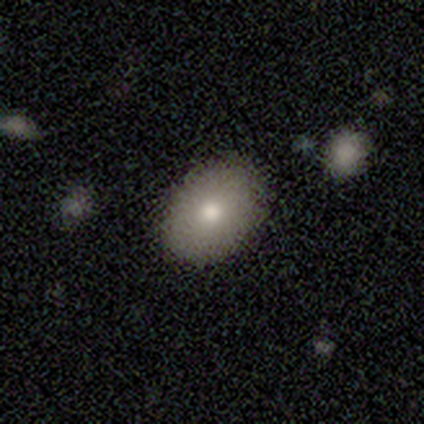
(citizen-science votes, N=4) Smooth or featured? 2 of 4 (50%, tied with featured or disk) said smooth. How rounded? 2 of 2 (100%) said in between. Merging? 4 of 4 (100%) said none.